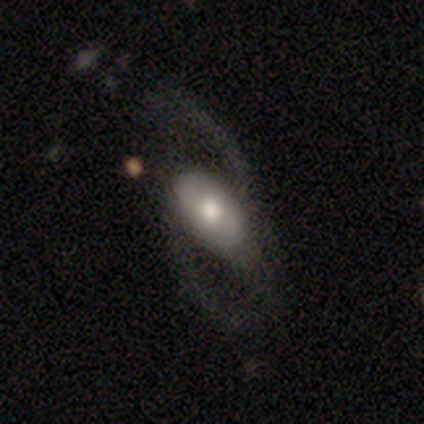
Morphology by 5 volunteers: Overall: featured or disk (80%). Edge-on disk: no (100%). Bar: no (50%; strong 25%). Spiral arms: yes (75%). Spiral arm count: 2 (67%; 1 33%). Spiral winding: medium (67%; tight 33%). Bulge size: moderate (50%; large 25%). Merging: none (40%, tied with major disturbance).